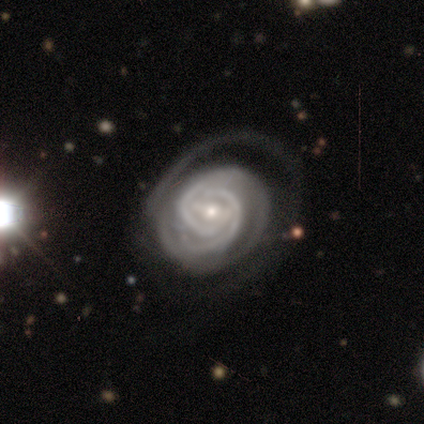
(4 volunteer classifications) This is clearly a featured or disk galaxy (100%). It is clearly not viewed edge-on (100%). Bar: likely strong (75%). Spiral arm pattern: clearly yes (100%). Spiral arm count: possibly 2 (50%, tied with can't tell). Spiral winding: clearly tight (100%). Central bulge: clearly small (100%). Merging: likely none (75%).